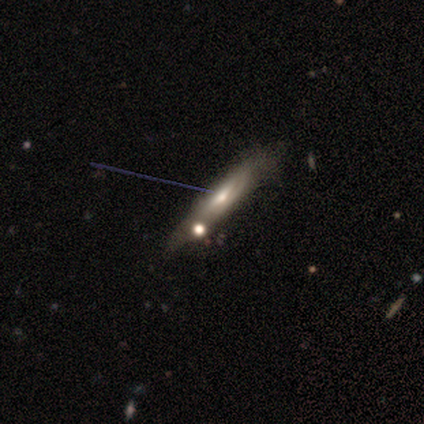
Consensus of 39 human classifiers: Morphology: type=featured or disk (56%); edge-on=yes (68%); edge-on bulge=rounded (60%); merging=minor disturbance (43%).